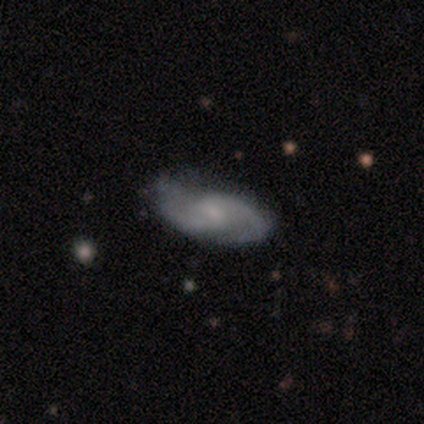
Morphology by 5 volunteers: A featured or disk galaxy (100%) with a weak bar (60%), 2 (100%) medium (80%) spiral arms (100%) and a small central bulge (60%).

Vote fractions:
- Smooth or featured? featured or disk: 100% / smooth: 0% / star or artifact: 0%
- Edge-on disk? no: 100% / yes: 0%
- Bar? weak: 60% / no: 40% / strong: 0%
- Spiral arms? yes: 100% / no: 0%
- Spiral winding? medium: 80% / tight: 20% / loose: 0%
- Spiral arm count? 2: 100% / 1: 0% / 3: 0% / 4: 0% / more than 4: 0% / can't tell: 0%
- Bulge size? small: 60% / moderate: 20% / none: 20% / dominant: 0% / large: 0%
- Merging? none: 100% / minor disturbance: 0% / major disturbance: 0% / merger: 0%